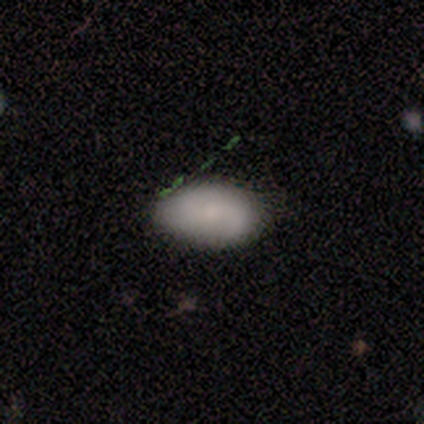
smooth 75%, featured or disk 25%, star or artifact 0%. Down the decision tree: how rounded — in between (100%); merging — none (100%).